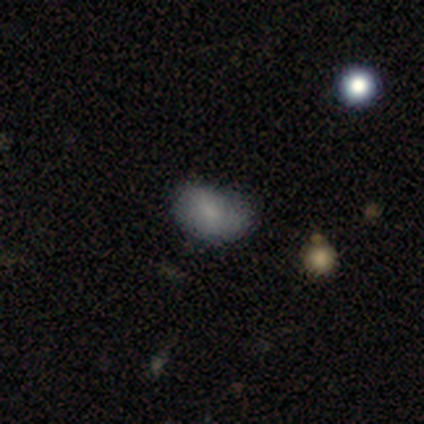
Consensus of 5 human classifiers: This is clearly a smooth galaxy (80%). How rounded: clearly in between (100%). Merging: marginally none (40%, tied with minor disturbance).